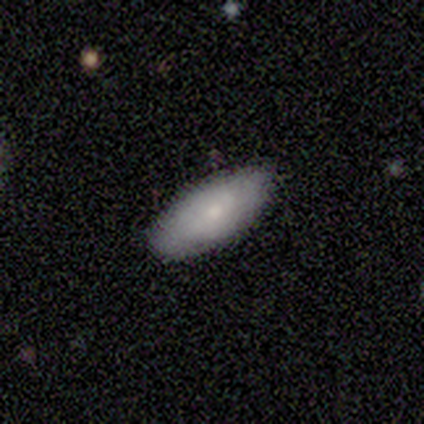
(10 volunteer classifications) Overall: smooth (80%). How rounded: in between (88%). Merging: none (100%).